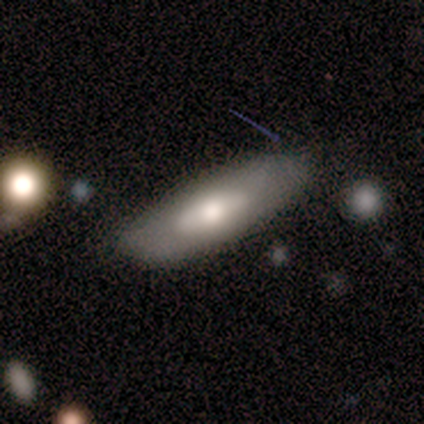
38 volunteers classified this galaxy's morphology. This appears to be a smooth galaxy with no disk features (53%) that is in between round and cigar-shaped (60%). Merging: none (75%).